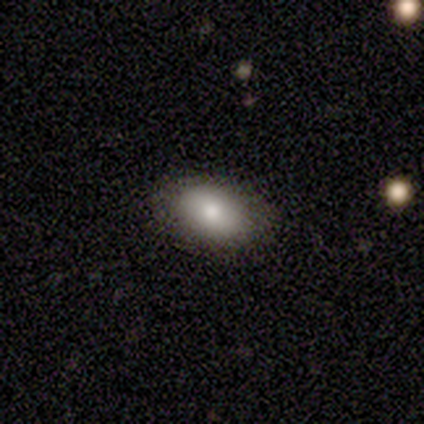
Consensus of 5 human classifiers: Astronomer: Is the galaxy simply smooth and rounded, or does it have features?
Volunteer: smooth — 80%.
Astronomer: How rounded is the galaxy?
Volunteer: in between — 75%.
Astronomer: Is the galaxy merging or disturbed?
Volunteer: none — 80%.